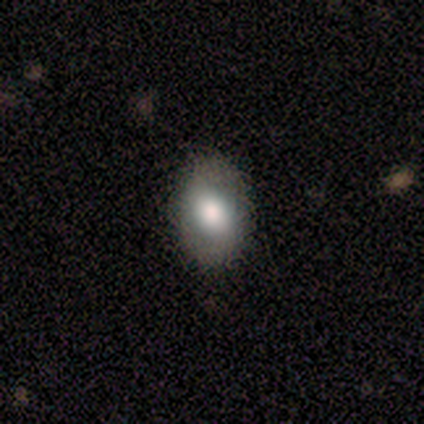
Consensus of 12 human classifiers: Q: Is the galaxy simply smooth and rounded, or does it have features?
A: smooth — 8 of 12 (67%).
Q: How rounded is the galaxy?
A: in between — 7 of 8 (88%).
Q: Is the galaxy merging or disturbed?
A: none — 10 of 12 (83%).